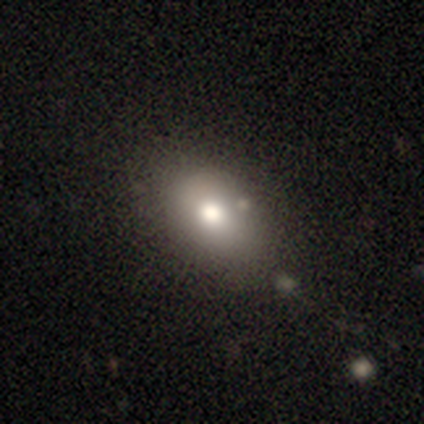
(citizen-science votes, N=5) smooth 100%, featured or disk 0%, star or artifact 0%. Down the decision tree: how rounded — in between (60%); merging — none (60%).